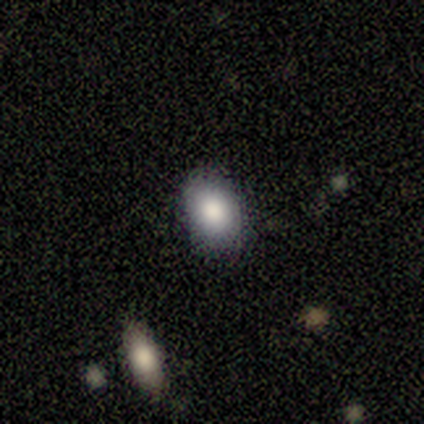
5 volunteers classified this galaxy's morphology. Volunteers were most divided on "how rounded": in between: 75%, round: 25%, cigar-shaped: 0%. More confident: smooth or featured — smooth (80%); merging — none (75%).